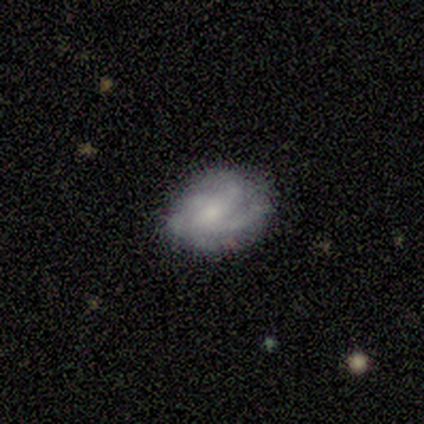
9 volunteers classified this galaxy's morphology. A featured or disk galaxy (78%) with no bar (57%), 4 (43%) medium (43%) spiral arms (100%) and a small central bulge (57%). Merging: none (75%).